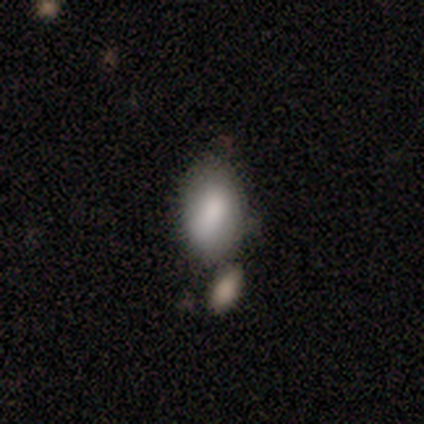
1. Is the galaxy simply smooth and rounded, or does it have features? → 100% smooth, 0% featured or disk, 0% star or artifact.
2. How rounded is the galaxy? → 100% in between, 0% round, 0% cigar-shaped.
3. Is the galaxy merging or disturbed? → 60% merger, 40% none, 0% minor disturbance, 0% major disturbance.